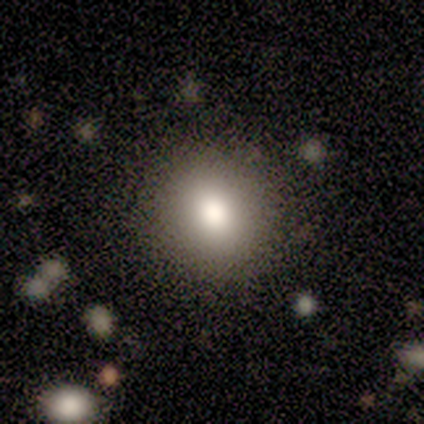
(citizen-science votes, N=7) smooth 86%, star or artifact 14%, featured or disk 0%. Down the decision tree: how rounded — round (83%); merging — none (83%).